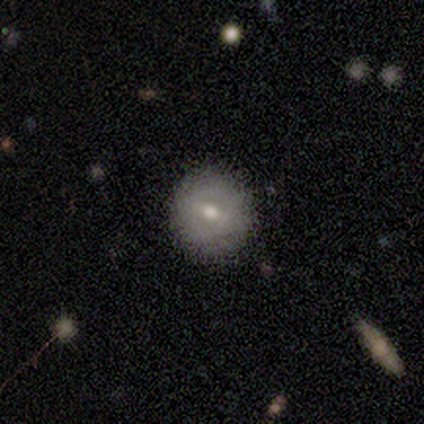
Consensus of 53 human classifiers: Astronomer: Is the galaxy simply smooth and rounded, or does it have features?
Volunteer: smooth — 60% (runner-up: featured or disk, 38%).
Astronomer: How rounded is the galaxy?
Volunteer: round — 97%.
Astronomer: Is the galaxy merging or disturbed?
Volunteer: none — 96%.